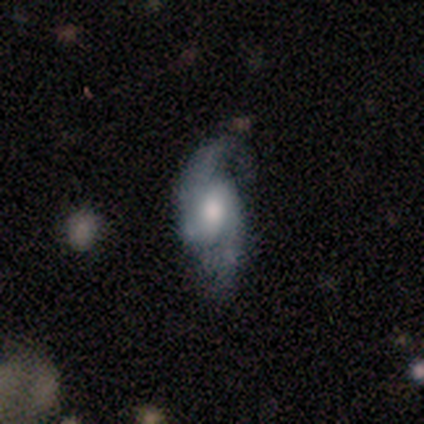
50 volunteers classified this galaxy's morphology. A featured or disk galaxy (80%) with a weak bar (56%), 2 (97%) loose (52%) spiral arms (97%) and a moderate central bulge (68%).

Vote fractions:
- Smooth or featured? featured or disk: 80% / smooth: 14% / star or artifact: 6%
- Edge-on disk? no: 85% / yes: 15%
- Bar? weak: 56% / no: 35% / strong: 9%
- Spiral arms? yes: 97% / no: 3%
- Spiral winding? loose: 52% / medium: 42% / tight: 6%
- Spiral arm count? 2: 97% / 1: 3% / 3: 0% / 4: 0% / more than 4: 0% / can't tell: 0%
- Bulge size? moderate: 68% / large: 18% / small: 15% / dominant: 0% / none: 0%
- Merging? none: 70% / minor disturbance: 19% / major disturbance: 9% / merger: 2%